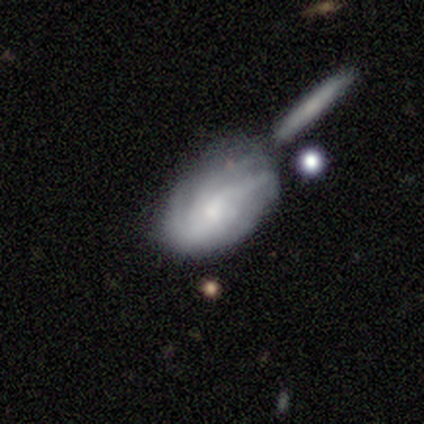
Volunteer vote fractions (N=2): Morphology: type=smooth (50%, tied with featured or disk); roundness=in between (100%); merging=minor disturbance (50%, tied with major disturbance).